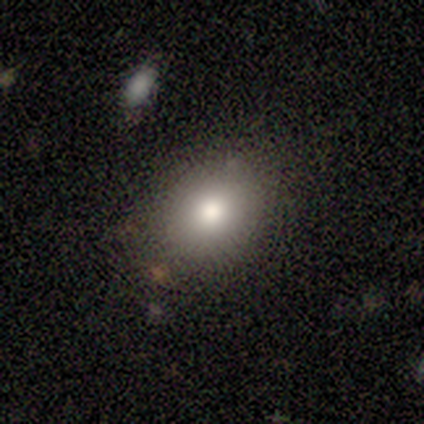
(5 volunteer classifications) Volunteers were most divided on "how rounded": in between: 60%, round: 40%, cigar-shaped: 0%. More confident: smooth or featured — smooth (100%); merging — none (80%).